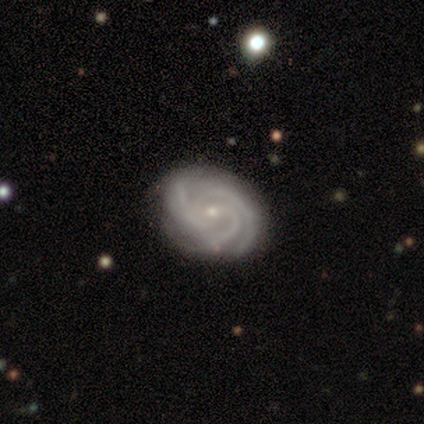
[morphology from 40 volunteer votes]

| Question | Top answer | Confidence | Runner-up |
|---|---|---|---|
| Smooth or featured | featured or disk | 82% | star or artifact (10%) |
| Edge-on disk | no | 97% | yes (3%) |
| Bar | no | 56% | weak (38%) |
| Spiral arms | yes | 100% | — |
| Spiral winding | tight | 66% | medium (34%) |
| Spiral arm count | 3 | 75% | can't tell (12%) |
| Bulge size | small | 84% | moderate (12%) |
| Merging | none | 83% | minor disturbance (11%) |